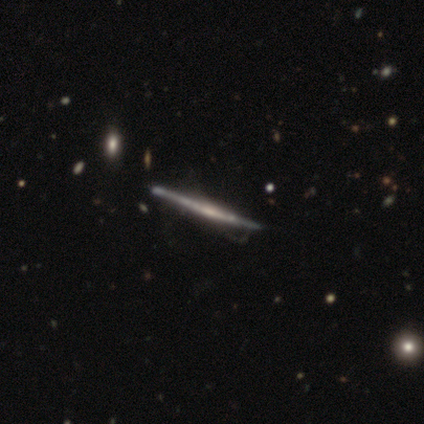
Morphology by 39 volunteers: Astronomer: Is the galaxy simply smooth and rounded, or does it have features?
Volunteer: featured or disk — 72%.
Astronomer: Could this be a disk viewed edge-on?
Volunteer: yes — 100%.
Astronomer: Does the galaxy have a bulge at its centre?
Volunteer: none — 75%.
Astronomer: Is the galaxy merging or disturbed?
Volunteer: none — 45% (runner-up: minor disturbance, 26%).